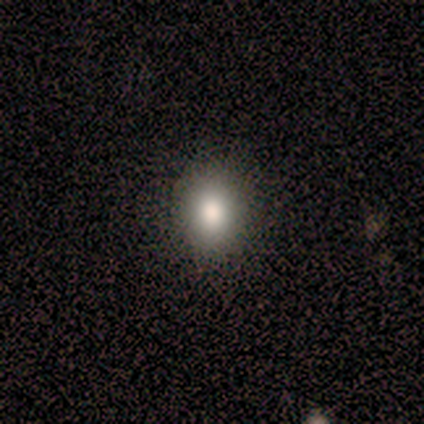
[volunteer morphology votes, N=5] A smooth galaxy with no disk features (60%) that is round (100%). Merging: none (100%).